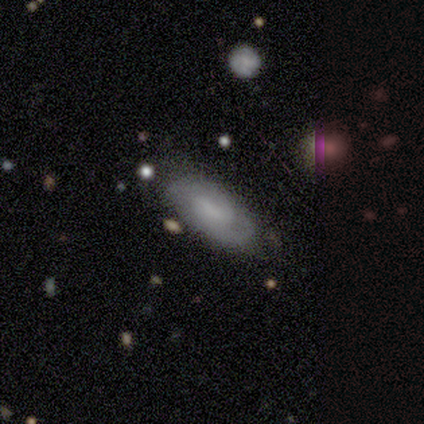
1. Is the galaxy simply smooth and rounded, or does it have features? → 50% smooth (tied), 50% featured or disk (tied), 0% star or artifact.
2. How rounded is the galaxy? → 100% in between, 0% round, 0% cigar-shaped.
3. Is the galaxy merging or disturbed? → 83% none, 17% minor disturbance, 0% major disturbance, 0% merger.